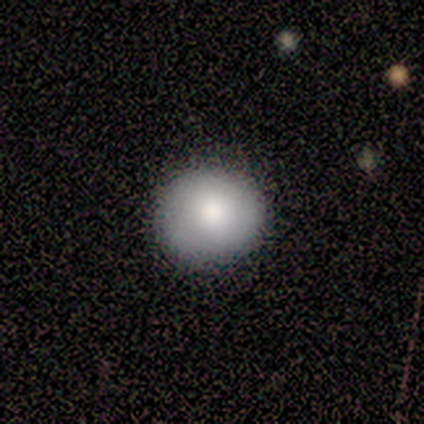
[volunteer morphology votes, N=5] This appears to be a smooth galaxy with no disk features (100%) that is round (80%). Merging: none (100%).